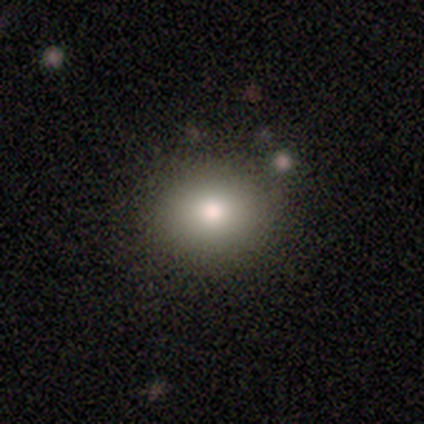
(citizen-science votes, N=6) Morphology: type=smooth (83%); roundness=in between (60%); merging=none (80%).